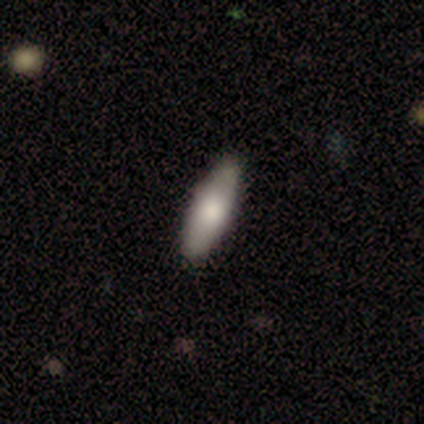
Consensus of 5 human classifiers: A smooth galaxy with no disk features (60%) that is in between round and cigar-shaped (67%). Merging: none (100%).